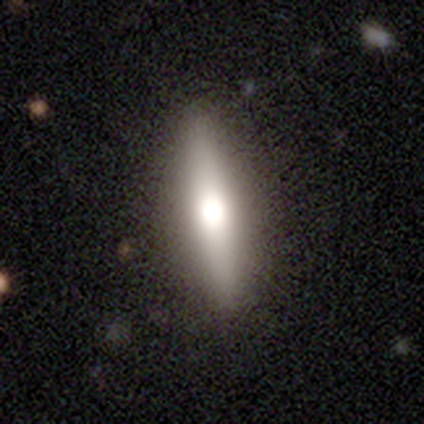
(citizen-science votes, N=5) Overall: smooth (80%). How rounded: in between (50%, tied with cigar-shaped). Merging: none (80%).